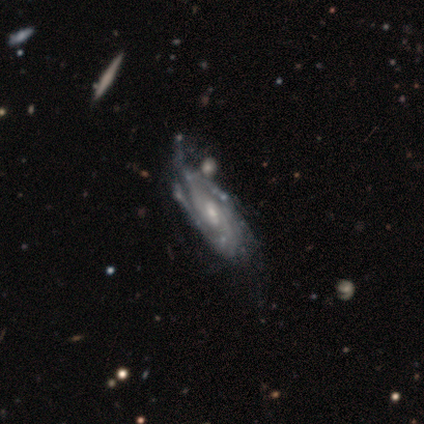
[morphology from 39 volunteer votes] Overall: featured or disk (95%). Edge-on disk: no (97%). Bar: no (42%; weak 39%). Spiral arms: yes (97%). Spiral arm count: 2 (31%; can't tell 29%). Spiral winding: tight (60%; medium 34%). Bulge size: moderate (50%; small 47%). Merging: none (28%; minor disturbance 21%).